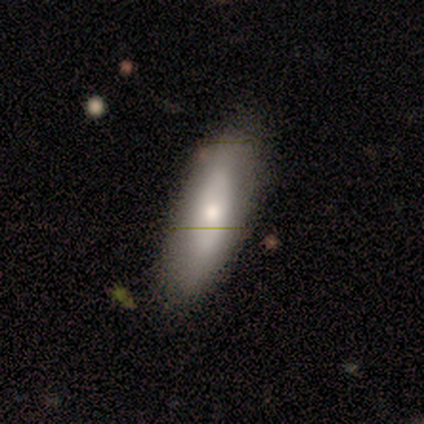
A smooth galaxy with no disk features (80%) that is in between round and cigar-shaped (75%).

Vote fractions:
- Smooth or featured? smooth: 80% / featured or disk: 20% / star or artifact: 0%
- How rounded? in between: 75% / cigar-shaped: 25% / round: 0%
- Merging? none: 80% / minor disturbance: 20% / major disturbance: 0% / merger: 0%